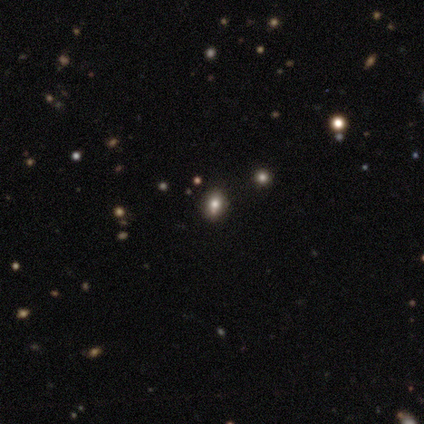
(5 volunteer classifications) Overall: smooth (60%; featured or disk 20%). How rounded: round (100%). Merging: none (75%).